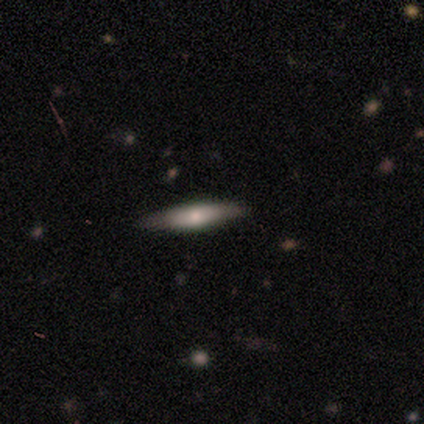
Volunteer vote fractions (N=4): Smooth or featured? 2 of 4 (50%, tied with featured or disk) said smooth. How rounded? 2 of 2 (100%) said cigar-shaped. Merging? 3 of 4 (75%) said none.